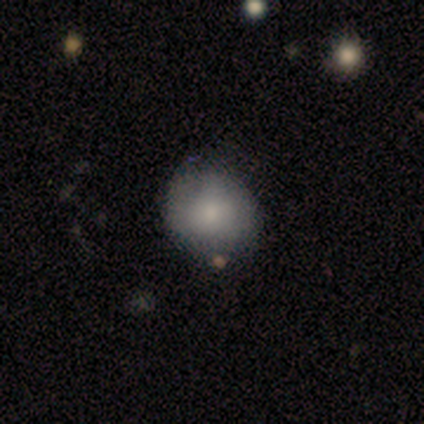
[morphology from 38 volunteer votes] smooth-or-featured: smooth: 76% | featured or disk: 21% | star or artifact: 3%
  how-rounded: round: 72% | in between: 28% | cigar-shaped: 0%
  merging: none: 68% | minor disturbance: 19% | major disturbance: 8% | merger: 5%